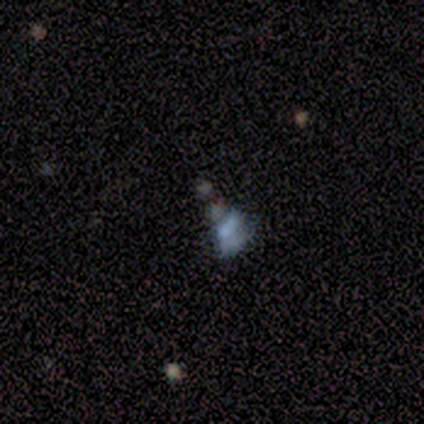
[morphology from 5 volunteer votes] Smooth or featured: smooth — 40% (tied with featured or disk — 40%)
How rounded: in between — 100%
Merging: major disturbance — 50% (none — 25%)